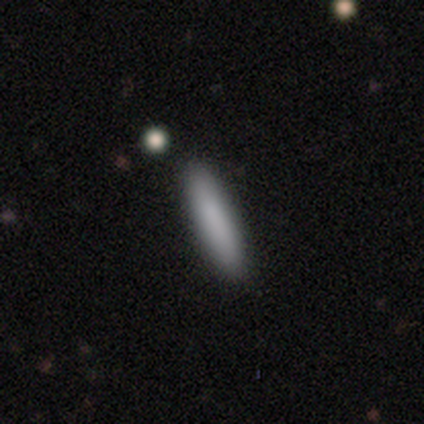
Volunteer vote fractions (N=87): Smooth or featured? smooth (91%)
How rounded? cigar-shaped (94%)
Merging? none (88%)